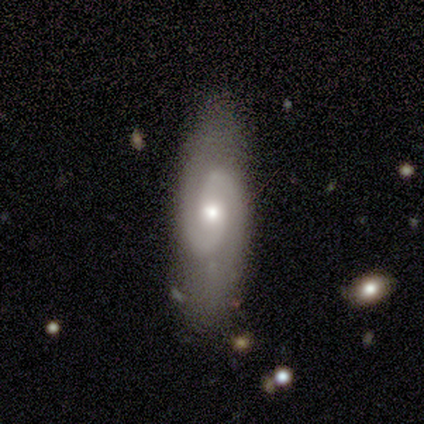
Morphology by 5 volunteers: Volunteers were most divided on "bulge size": small: 60%, moderate: 40%, dominant: 0%, large: 0%, none: 0%. More confident: smooth or featured — featured or disk (100%); edge-on disk — no (100%); spiral arms — yes (100%); spiral arm count — 2 (100%); spiral winding — tight (80%); bar — no (60%); merging — none (60%).